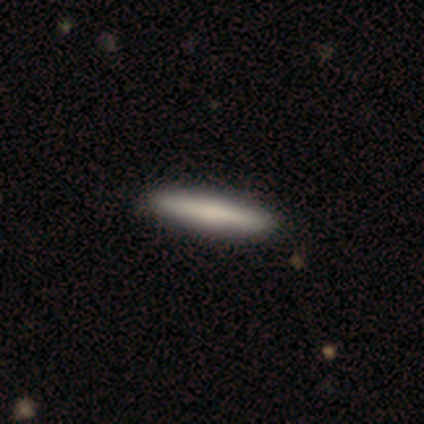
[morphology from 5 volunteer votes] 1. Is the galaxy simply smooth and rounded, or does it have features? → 80% smooth, 20% featured or disk, 0% star or artifact.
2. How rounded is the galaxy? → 100% cigar-shaped, 0% round, 0% in between.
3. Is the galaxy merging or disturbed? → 80% none, 20% minor disturbance, 0% major disturbance, 0% merger.